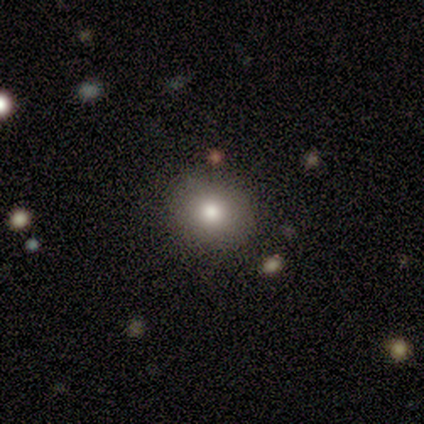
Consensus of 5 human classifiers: Volunteers were most divided on "smooth or featured" (2-way tie): smooth: 40%, featured or disk: 40%, star or artifact: 20%. More confident: how rounded — round (100%); merging — none (75%).